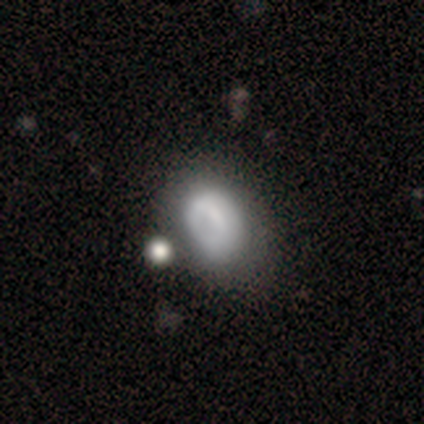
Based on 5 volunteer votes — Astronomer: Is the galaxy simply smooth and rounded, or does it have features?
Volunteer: smooth — 60%.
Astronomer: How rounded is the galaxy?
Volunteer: in between — 100%.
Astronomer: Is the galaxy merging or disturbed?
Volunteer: minor disturbance — 75%.